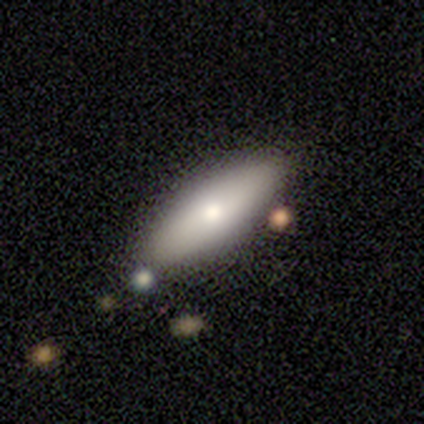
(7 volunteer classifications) smooth_or_featured: smooth (p=0.86) [alt: featured or disk p=0.14]
how_rounded: in between (p=0.67) [alt: cigar-shaped p=0.33]
merging: none (p=1.00)